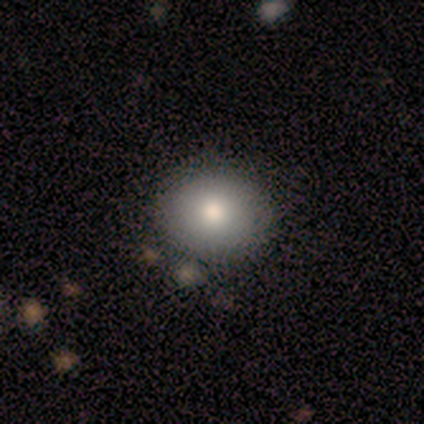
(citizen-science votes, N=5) This appears to be a smooth galaxy with no disk features (100%) that is round (80%). Merging: none (80%).